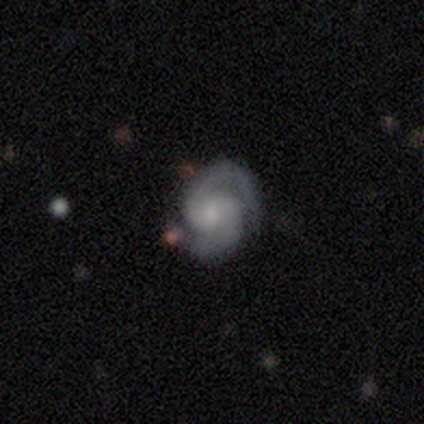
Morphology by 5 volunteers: A featured or disk galaxy (80%) with a weak bar (75%), 2 (100%) tight (50%, tied with medium) spiral arms (100%) and a large central bulge (25%, tied with moderate, small and none). Merging: minor disturbance (75%).